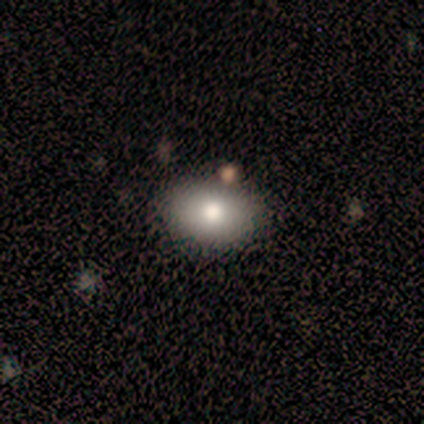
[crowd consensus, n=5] Q: Smooth or featured?
A: smooth (80%); runner-up: star or artifact (20%)
Q: How rounded?
A: in between (100%)
Q: Merging?
A: none (75%); runner-up: minor disturbance (25%)